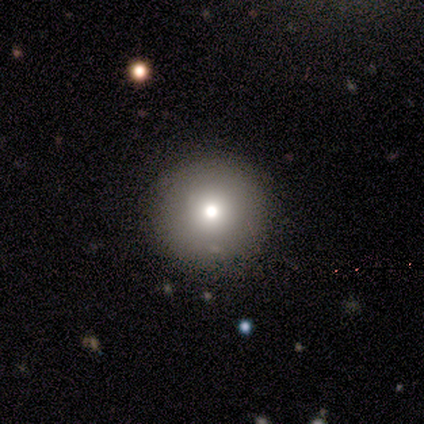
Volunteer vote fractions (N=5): smooth 40% (tied), featured or disk 40% (tied), star or artifact 20%. Down the decision tree: how rounded — round (100%); merging — none (100%).